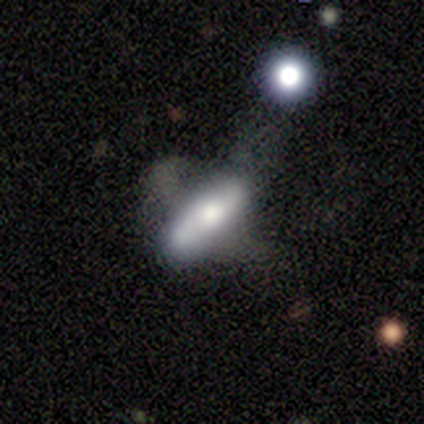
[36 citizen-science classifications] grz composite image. It shows a smooth galaxy with no disk features (53%) that is cigar-shaped (63%). Merging: major disturbance (31%).